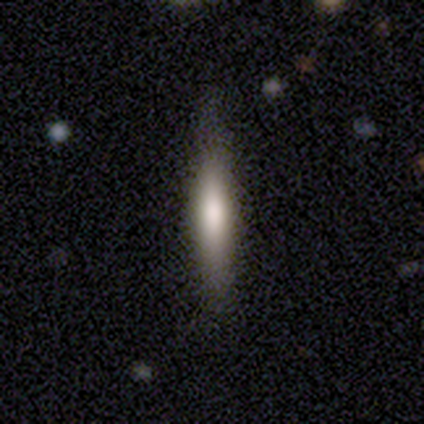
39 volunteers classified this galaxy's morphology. A smooth galaxy with no disk features (74%) that is cigar-shaped (93%). Merging: none (64%).